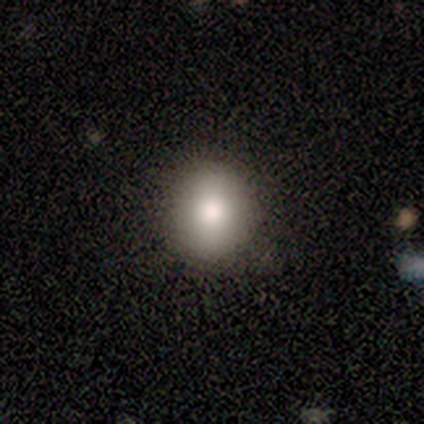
Morphology: type=smooth (100%); roundness=round (50%, tied with in between); merging=none (67%).